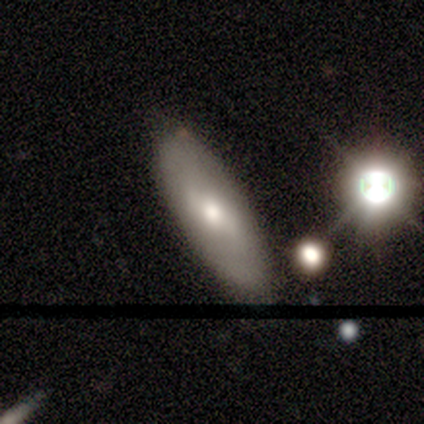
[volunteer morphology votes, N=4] Smooth or featured? smooth (75%)
How rounded? in between (67%)
Merging? none (67%)